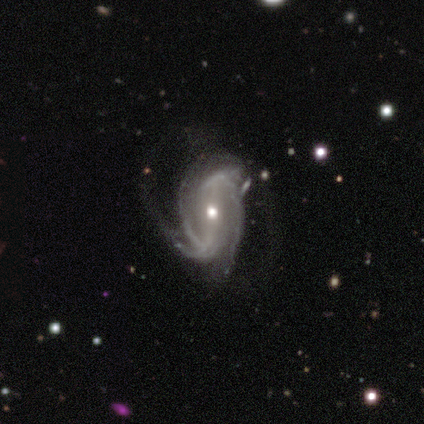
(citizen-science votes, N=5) Smooth or featured?
  - featured or disk: 100% *
  - smooth: 0%
  - star or artifact: 0%
Edge-on disk?
  - no: 100% *
  - yes: 0%
Bar?
  - weak: 40% * (tied)
  - no: 40% * (tied)
  - strong: 20%
Spiral arms?
  - yes: 100% *
  - no: 0%
Spiral winding?
  - medium: 80% *
  - loose: 20%
  - tight: 0%
Spiral arm count?
  - 3: 60% *
  - 2: 20%
  - can't tell: 20%
  - 1: 0%
  - 4: 0%
  - more than 4: 0%
Bulge size?
  - moderate: 80% *
  - small: 20%
  - dominant: 0%
  - large: 0%
  - none: 0%
Merging?
  - none: 40% * (tied)
  - minor disturbance: 40% * (tied)
  - major disturbance: 20%
  - merger: 0%